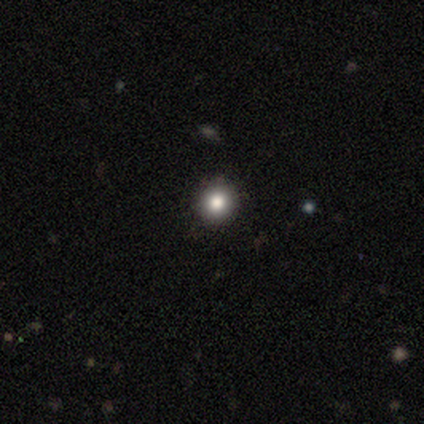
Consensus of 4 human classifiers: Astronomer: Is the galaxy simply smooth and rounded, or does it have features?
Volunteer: smooth — 50%.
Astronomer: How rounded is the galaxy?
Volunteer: round — 100%.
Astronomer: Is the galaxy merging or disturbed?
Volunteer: none — 100%.